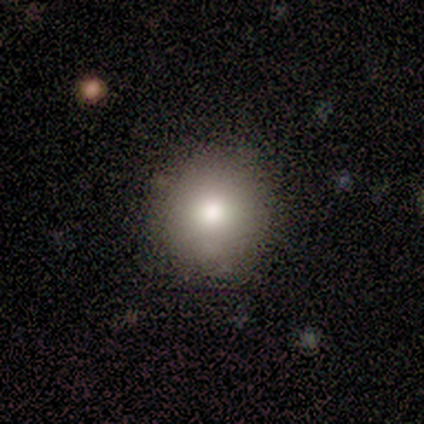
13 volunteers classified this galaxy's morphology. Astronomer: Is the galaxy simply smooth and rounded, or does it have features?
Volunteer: smooth — 92%.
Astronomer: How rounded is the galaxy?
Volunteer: round — 92%.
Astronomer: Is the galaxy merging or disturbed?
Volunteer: none — 92%.